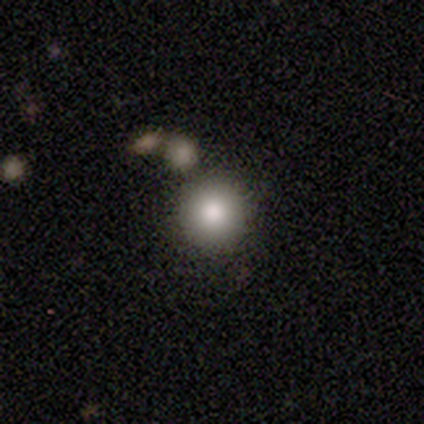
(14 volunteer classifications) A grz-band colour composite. It shows a smooth galaxy with no disk features (79%) that is round (100%). Merging: none (58%).